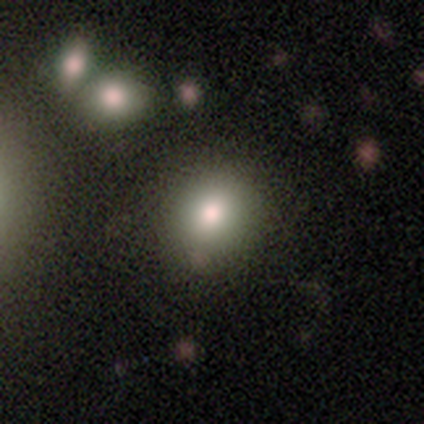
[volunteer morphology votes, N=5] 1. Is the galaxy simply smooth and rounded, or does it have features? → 100% smooth, 0% featured or disk, 0% star or artifact.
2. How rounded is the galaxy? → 100% round, 0% in between, 0% cigar-shaped.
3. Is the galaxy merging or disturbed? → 100% none, 0% minor disturbance, 0% major disturbance, 0% merger.